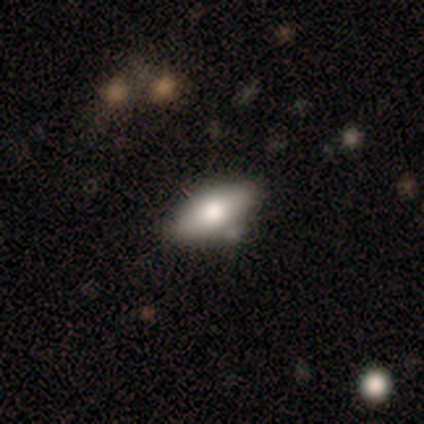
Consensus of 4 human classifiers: smooth-or-featured: smooth: 75% | featured or disk: 25% | star or artifact: 0%
  how-rounded: in between: 67% | cigar-shaped: 33% | round: 0%
  merging: none: 75% | minor disturbance: 25% | major disturbance: 0% | merger: 0%